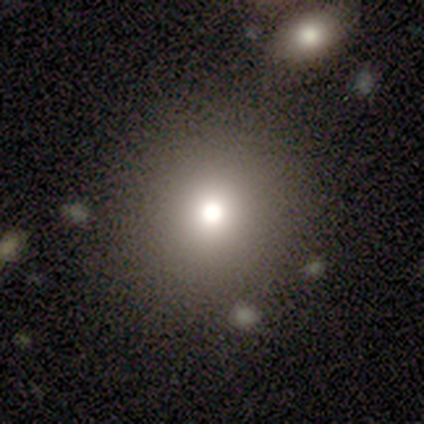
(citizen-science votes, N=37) smooth 73%, star or artifact 16%, featured or disk 11%. Down the decision tree: how rounded — round (93%); merging — none (87%).